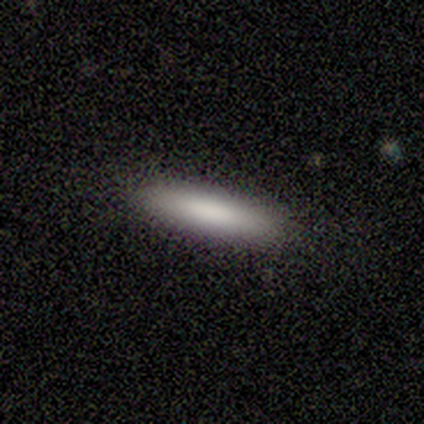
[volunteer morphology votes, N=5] Overall: smooth (100%). How rounded: cigar-shaped (100%). Merging: none (100%).